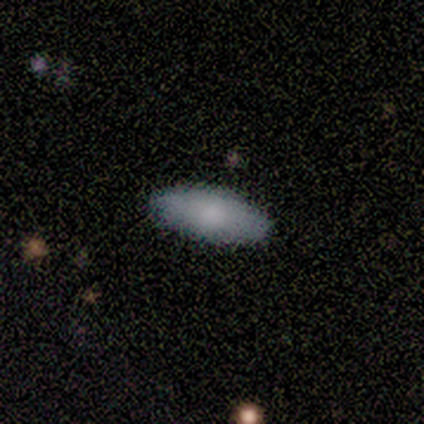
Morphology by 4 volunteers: This appears to be a smooth galaxy with no disk features (100%) that is in between round and cigar-shaped (75%). Merging: none (100%).